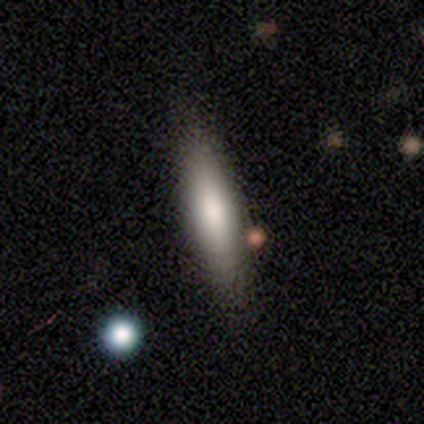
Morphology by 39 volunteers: This is likely a smooth galaxy (72%). How rounded: likely cigar-shaped (61%). Merging: possibly none (57%).